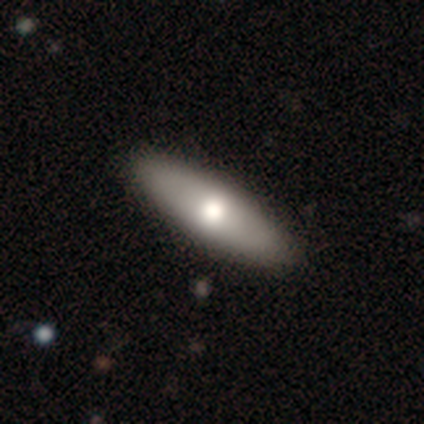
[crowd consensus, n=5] Smooth or featured? 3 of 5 (60%) said smooth. How rounded? 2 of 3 (67%) said cigar-shaped. Merging? 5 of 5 (100%) said none.